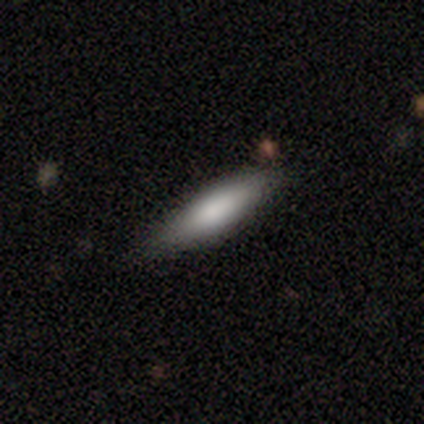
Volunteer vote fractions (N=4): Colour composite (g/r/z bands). It shows a smooth galaxy with no disk features (100%) that is in between round and cigar-shaped (50%, tied with cigar-shaped). Merging: none (50%).